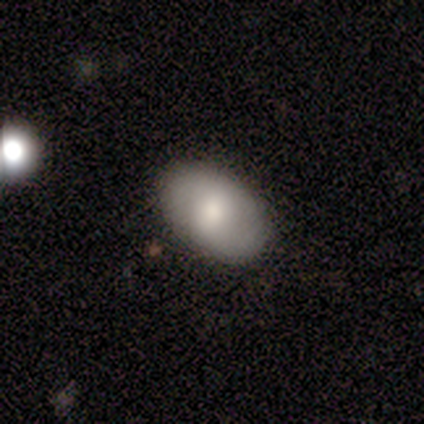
A smooth galaxy with no disk features (67%) that is in between round and cigar-shaped (100%). Merging: none (100%).